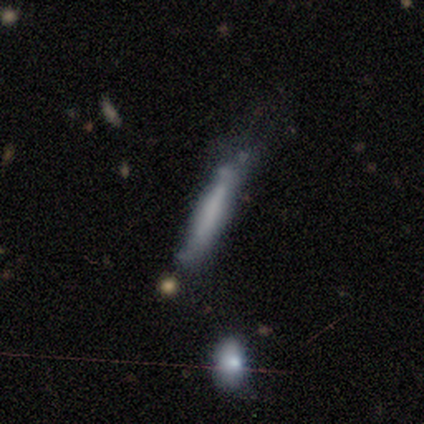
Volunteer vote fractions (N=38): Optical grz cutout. It shows a smooth galaxy with no disk features (55%) that is cigar-shaped (90%). Merging: none (58%).